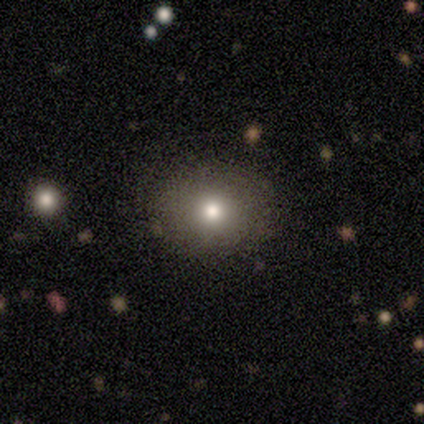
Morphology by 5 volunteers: Smooth or featured: featured or disk — 60% (smooth — 40%)
Edge-on disk: no — 100%
Bar: no — 100%
Spiral arms: no — 67% (yes — 33%)
Bulge size: moderate — 67% (large — 33%)
Merging: none — 60% (minor disturbance — 40%)